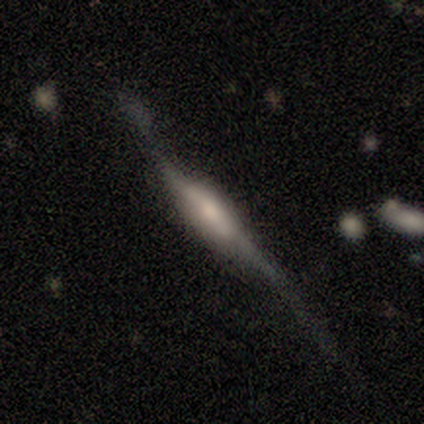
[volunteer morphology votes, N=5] A featured or disk galaxy (100%) viewed edge-on (100%) with a rounded central bulge (60%).

Vote fractions:
- Smooth or featured? featured or disk: 100% / smooth: 0% / star or artifact: 0%
- Edge-on disk? yes: 100% / no: 0%
- Edge-on bulge? rounded: 60% / boxy: 40% / none: 0%
- Merging? none: 40% (tied) / major disturbance: 40% (tied) / minor disturbance: 20% / merger: 0%